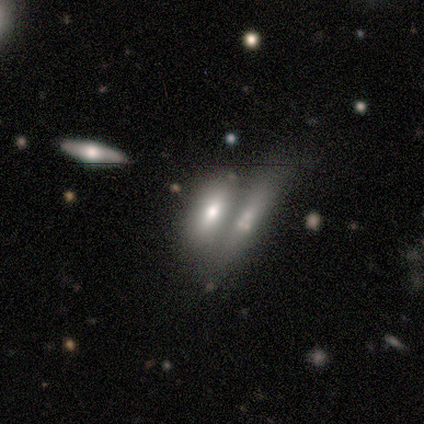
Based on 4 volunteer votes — Smooth or featured? smooth (75%)
How rounded? in between (100%)
Merging? merger (50%)